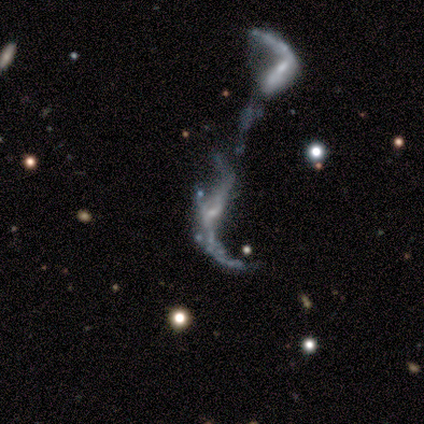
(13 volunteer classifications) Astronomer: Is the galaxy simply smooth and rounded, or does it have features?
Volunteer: featured or disk — 77%.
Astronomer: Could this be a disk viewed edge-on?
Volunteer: no — 90%.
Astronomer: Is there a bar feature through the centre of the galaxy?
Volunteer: no — 89%.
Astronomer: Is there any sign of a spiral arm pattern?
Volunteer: yes — 56% (runner-up: no, 44%).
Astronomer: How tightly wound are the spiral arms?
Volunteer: loose — 100%.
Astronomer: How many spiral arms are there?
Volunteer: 2 — 100%.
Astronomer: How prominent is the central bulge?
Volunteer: none — 78%.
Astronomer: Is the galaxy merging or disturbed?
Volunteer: merger — 82%.